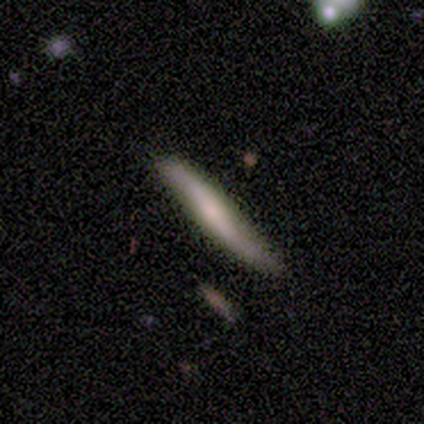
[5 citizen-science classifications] A smooth galaxy with no disk features (80%) that is cigar-shaped (100%). Merging: none (60%).